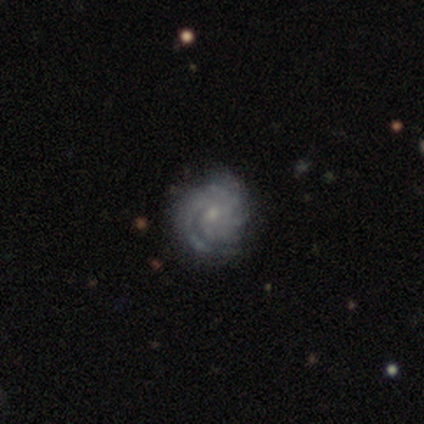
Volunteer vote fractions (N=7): Smooth or featured: featured or disk — 86% (smooth — 14%)
Edge-on disk: no — 83% (yes — 17%)
Bar: no — 100%
Spiral arms: yes — 100%
Spiral winding: medium — 60% (tight — 40%)
Spiral arm count: can't tell — 60% (2 — 20%)
Bulge size: small — 80% (moderate — 20%)
Merging: none — 71% (minor disturbance — 14%)